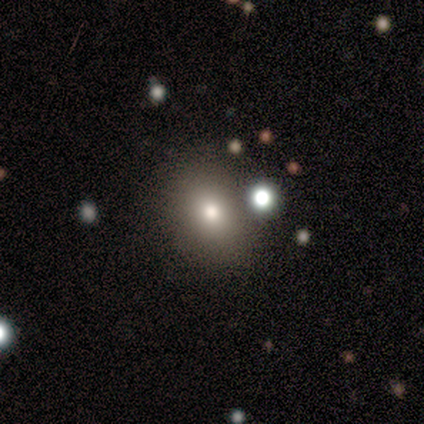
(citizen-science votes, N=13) Smooth or featured? 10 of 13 (77%) said smooth. How rounded? 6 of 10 (60%) said in between. Merging? 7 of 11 (64%) said none.